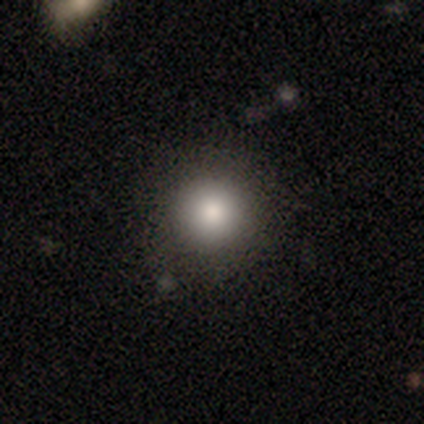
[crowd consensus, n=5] Smooth or featured?
  - smooth: 80% *
  - featured or disk: 20%
  - star or artifact: 0%
How rounded?
  - round: 100% *
  - in between: 0%
  - cigar-shaped: 0%
Merging?
  - none: 100% *
  - minor disturbance: 0%
  - major disturbance: 0%
  - merger: 0%